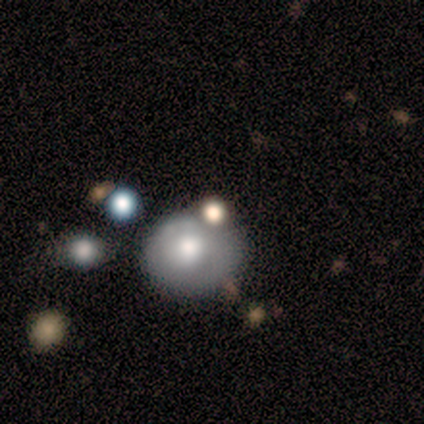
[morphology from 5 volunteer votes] Volunteers were most divided on "smooth or featured": smooth: 60%, featured or disk: 40%, star or artifact: 0%. More confident: how rounded — round (100%); merging — merger (60%).